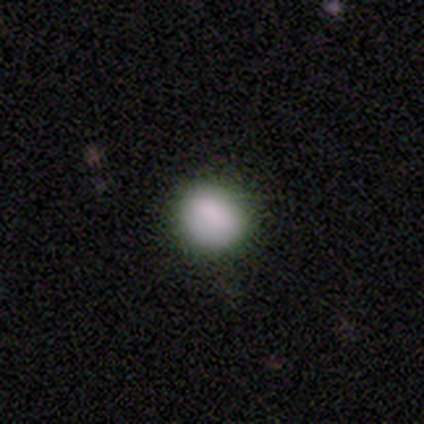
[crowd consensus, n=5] This is clearly a smooth galaxy (100%). How rounded: clearly round (80%). Merging: clearly none (80%).